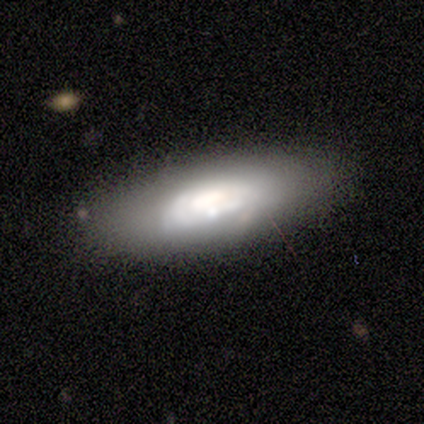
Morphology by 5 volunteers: A smooth galaxy with no disk features (80%) that is in between round and cigar-shaped (50%, tied with cigar-shaped). Merging: none (40%, tied with minor disturbance).